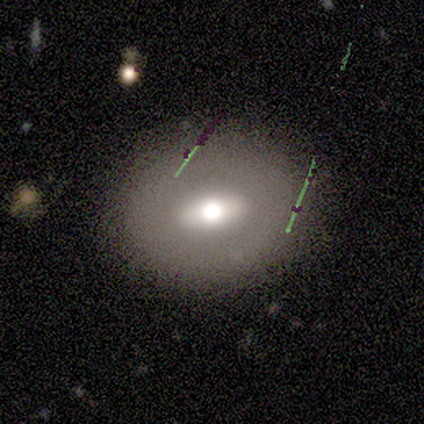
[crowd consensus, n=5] A smooth galaxy with no disk features (40%, tied with featured or disk) that is in between round and cigar-shaped (100%).

Vote fractions:
- Smooth or featured? smooth: 40% (tied) / featured or disk: 40% (tied) / star or artifact: 20%
- How rounded? in between: 100% / round: 0% / cigar-shaped: 0%
- Merging? none: 100% / minor disturbance: 0% / major disturbance: 0% / merger: 0%